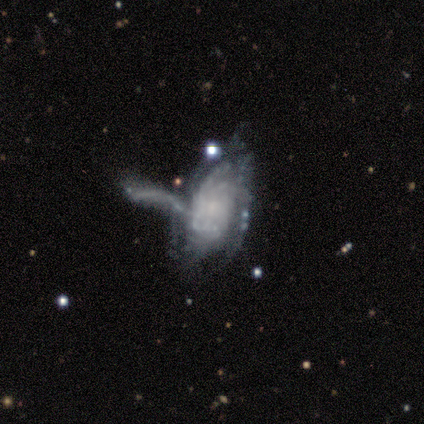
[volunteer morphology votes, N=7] Q: Smooth or featured?
A: featured or disk (100%)
Q: Edge-on disk?
A: no (100%)
Q: Bar?
A: no (71%); runner-up: weak (29%)
Q: Spiral arms?
A: yes (100%)
Q: Spiral winding?
A: tight (71%); runner-up: loose (29%)
Q: Spiral arm count?
A: can't tell (86%); runner-up: 3 (14%)
Q: Bulge size?
A: small (57%); runner-up: moderate (29%)
Q: Merging?
A: none (43%); runner-up: major disturbance (29%)